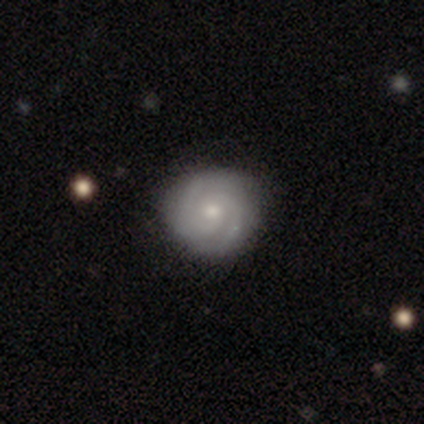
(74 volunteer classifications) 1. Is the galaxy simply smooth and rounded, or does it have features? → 85% featured or disk, 8% smooth, 7% star or artifact.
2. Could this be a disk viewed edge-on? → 97% no, 3% yes.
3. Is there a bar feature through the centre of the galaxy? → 82% no, 15% weak, 3% strong.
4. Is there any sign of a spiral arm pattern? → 98% yes, 2% no.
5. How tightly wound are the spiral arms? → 82% tight, 17% medium, 2% loose.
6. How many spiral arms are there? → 85% 2, 10% 3, 5% can't tell, 0% 1, 0% 4, 0% more than 4.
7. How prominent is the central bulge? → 57% moderate, 41% small, 2% large, 0% dominant, 0% none.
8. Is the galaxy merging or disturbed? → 91% none, 9% minor disturbance, 0% major disturbance, 0% merger.